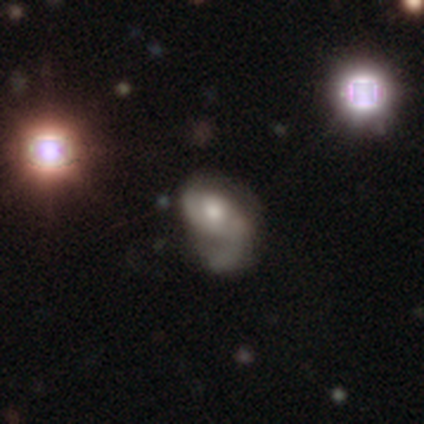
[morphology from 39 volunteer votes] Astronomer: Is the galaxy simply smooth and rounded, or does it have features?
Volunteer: featured or disk — 79%.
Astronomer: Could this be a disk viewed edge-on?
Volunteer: no — 100%.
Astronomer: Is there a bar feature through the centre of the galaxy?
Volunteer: no — 81%.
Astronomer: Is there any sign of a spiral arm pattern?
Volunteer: yes — 71%.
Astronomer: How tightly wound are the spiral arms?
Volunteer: loose — 45% (runner-up: medium, 41%).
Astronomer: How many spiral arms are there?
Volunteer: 1 — 50% (runner-up: 2, 32%).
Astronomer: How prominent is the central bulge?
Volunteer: moderate — 55%.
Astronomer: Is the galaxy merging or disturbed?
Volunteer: major disturbance — 54%.